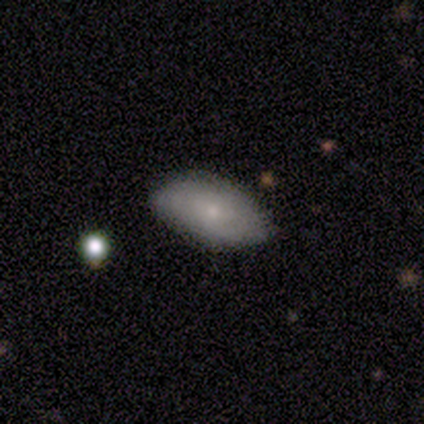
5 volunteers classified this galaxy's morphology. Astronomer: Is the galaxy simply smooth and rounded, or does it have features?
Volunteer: featured or disk — 80%.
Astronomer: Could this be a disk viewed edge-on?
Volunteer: no — 100%.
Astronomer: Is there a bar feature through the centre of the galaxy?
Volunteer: no — 100%.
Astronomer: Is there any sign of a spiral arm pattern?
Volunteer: yes — 75%.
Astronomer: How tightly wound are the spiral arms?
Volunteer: medium — 67%.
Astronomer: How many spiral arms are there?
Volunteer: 2 — 33%, tied with more than 4 and can't tell at 33%.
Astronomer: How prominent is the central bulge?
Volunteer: small — 100%.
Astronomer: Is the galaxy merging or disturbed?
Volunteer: none — 80%.